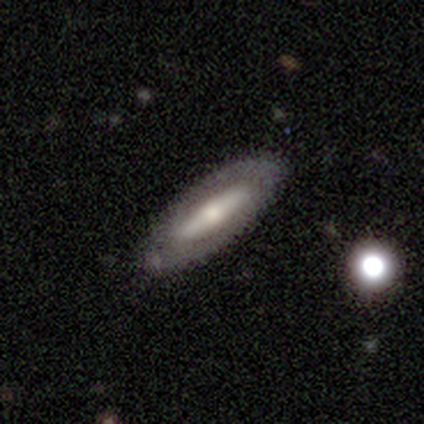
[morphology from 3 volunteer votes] Q: Smooth or featured?
A: featured or disk (100%)
Q: Edge-on disk?
A: no (67%); runner-up: yes (33%)
Q: Bar?
A: strong (100%)
Q: Spiral arms?
A: no (100%)
Q: Bulge size?
A: large (50%); tied with: moderate (50%)
Q: Merging?
A: none (67%); runner-up: minor disturbance (33%)